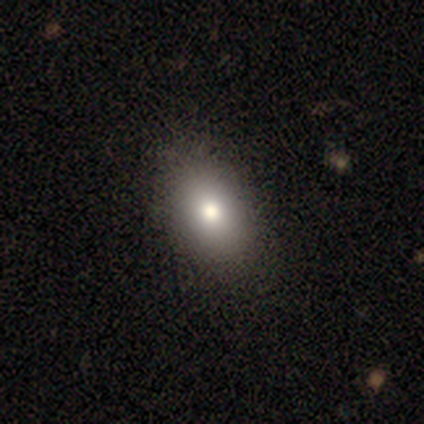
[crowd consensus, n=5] Smooth or featured?
  - smooth: 80% *
  - featured or disk: 20%
  - star or artifact: 0%
How rounded?
  - in between: 100% *
  - round: 0%
  - cigar-shaped: 0%
Merging?
  - none: 100% *
  - minor disturbance: 0%
  - major disturbance: 0%
  - merger: 0%